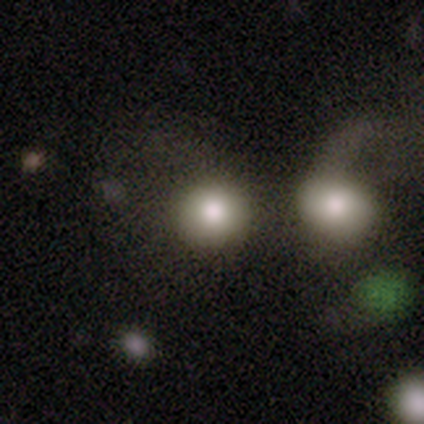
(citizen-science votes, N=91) Volunteers were most divided on "merging": merger: 42%, none: 34%, major disturbance: 18%, minor disturbance: 6%. More confident: how rounded — round (89%); smooth or featured — smooth (80%).